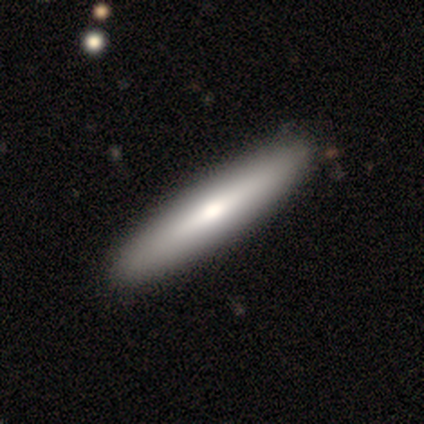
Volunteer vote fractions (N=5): This is likely a featured or disk galaxy (60%). It is clearly viewed edge-on (100%). Edge-on bulge: likely rounded (67%). Merging: clearly none (100%).